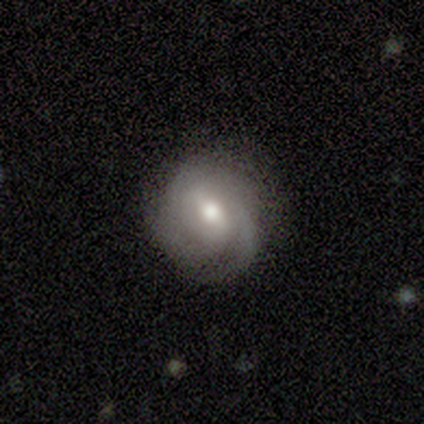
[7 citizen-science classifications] Smooth or featured? 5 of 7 (71%) said featured or disk. Edge-on disk? 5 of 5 (100%) said no. Bar? 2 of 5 (40%, tied with no) said weak. Spiral arms? 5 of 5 (100%) said yes. Spiral winding? 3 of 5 (60%) said tight. Spiral arm count? 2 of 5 (40%, tied with can't tell) said 3. Bulge size? 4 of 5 (80%) said moderate. Merging? 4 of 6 (67%) said none.